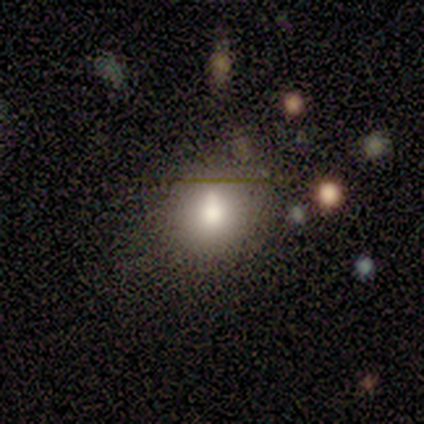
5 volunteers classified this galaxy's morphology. type=smooth (80%); roundness=round (75%); merging=none (100%).